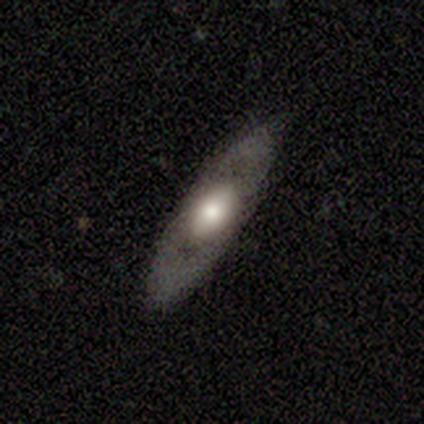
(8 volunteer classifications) Morphology: type=smooth (50%, tied with featured or disk); roundness=in between (50%); merging=none (75%).